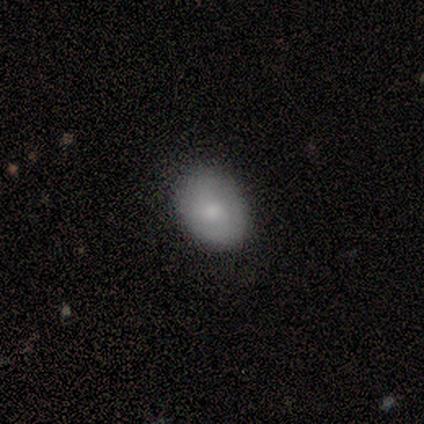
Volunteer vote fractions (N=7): Smooth or featured: smooth — 71% (featured or disk — 29%)
How rounded: in between — 60% (round — 40%)
Merging: none — 86% (minor disturbance — 14%)